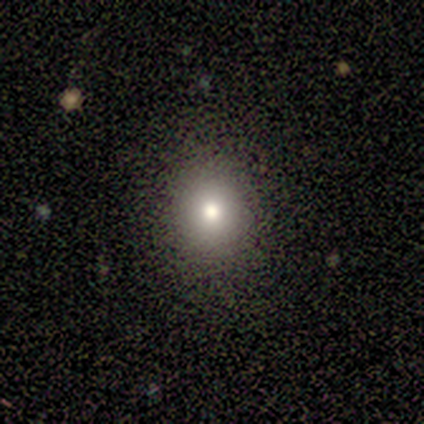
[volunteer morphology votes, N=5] Q: Smooth or featured?
A: smooth (80%); runner-up: featured or disk (20%)
Q: How rounded?
A: round (100%)
Q: Merging?
A: none (100%)